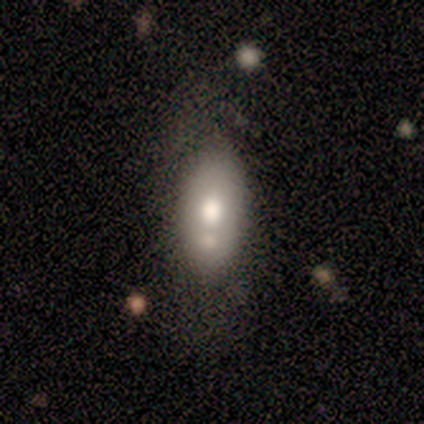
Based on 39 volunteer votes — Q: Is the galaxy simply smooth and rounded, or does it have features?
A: smooth — 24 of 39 (62%).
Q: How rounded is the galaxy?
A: in between — 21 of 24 (88%).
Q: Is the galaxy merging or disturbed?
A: none — 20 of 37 (54%).